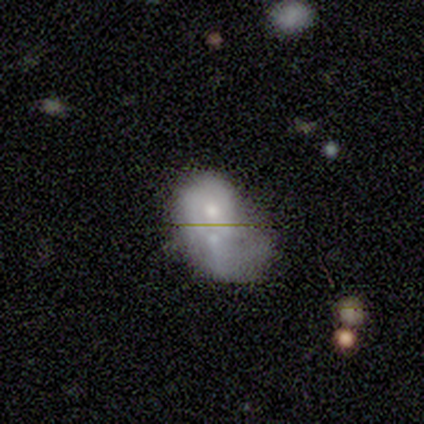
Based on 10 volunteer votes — Smooth or featured: smooth — 50% (featured or disk — 40%)
How rounded: round — 60% (in between — 40%)
Merging: merger — 56% (minor disturbance — 22%)